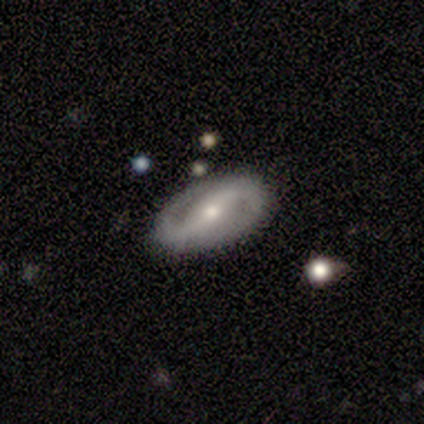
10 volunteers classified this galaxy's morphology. Smooth or featured: featured or disk — 90% (smooth — 10%)
Edge-on disk: no — 100%
Bar: strong — 44% (weak — 33%)
Spiral arms: yes — 67% (no — 33%)
Spiral winding: loose — 50% (medium — 33%)
Spiral arm count: 2 — 83% (can't tell — 17%)
Bulge size: moderate — 78% (small — 22%)
Merging: none — 90% (minor disturbance — 10%)